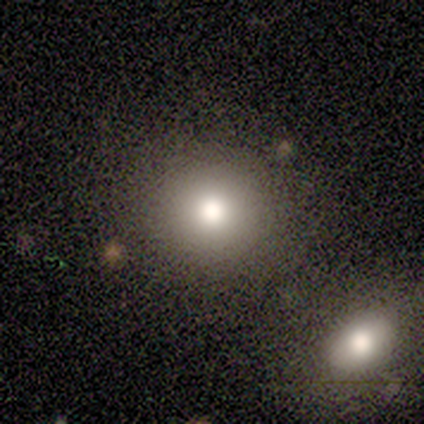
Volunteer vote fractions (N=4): smooth-or-featured: smooth: 75% | star or artifact: 25% | featured or disk: 0%
  how-rounded: round: 100% | in between: 0% | cigar-shaped: 0%
  merging: none: 33% (tied) | minor disturbance: 33% (tied) | merger: 33% (tied) | major disturbance: 0%